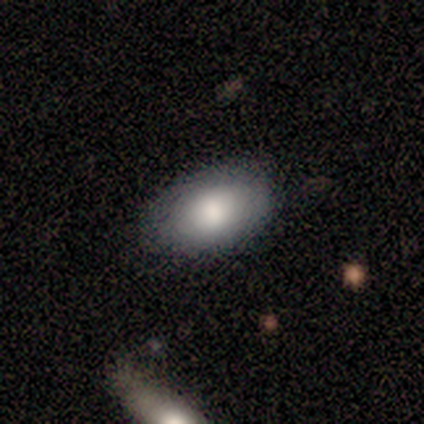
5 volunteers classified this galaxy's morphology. This appears to be a featured or disk galaxy (60%) viewed edge-on (67%) with no central bulge (50%, tied with rounded). Merging: none (60%).